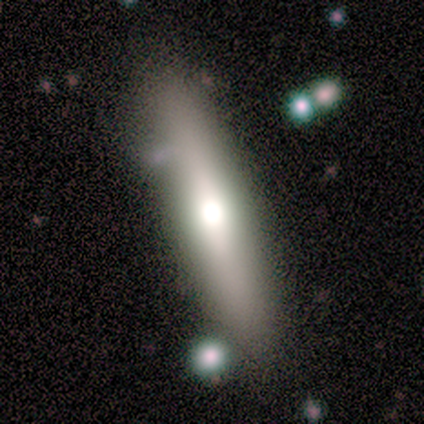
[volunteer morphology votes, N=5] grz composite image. It shows a smooth galaxy with no disk features (60%) that is cigar-shaped (100%). Merging: none (80%).